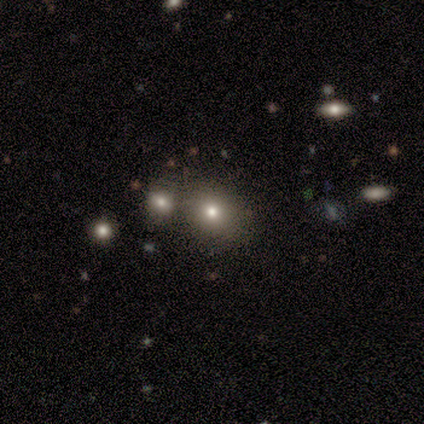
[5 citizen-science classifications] Volunteers were most divided on "smooth or featured": smooth: 80%, featured or disk: 20%, star or artifact: 0%. More confident: how rounded — round (100%); merging — none (80%).